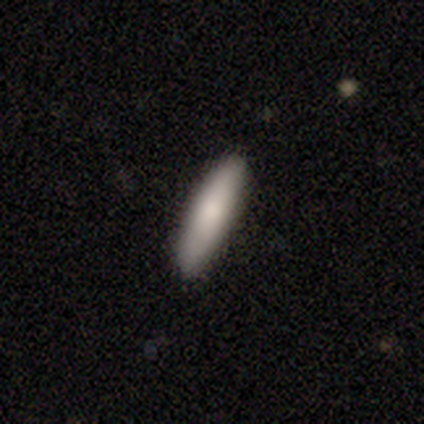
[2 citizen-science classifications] This is possibly a smooth galaxy (50%, tied with featured or disk). How rounded: clearly cigar-shaped (100%). Merging: clearly none (100%).